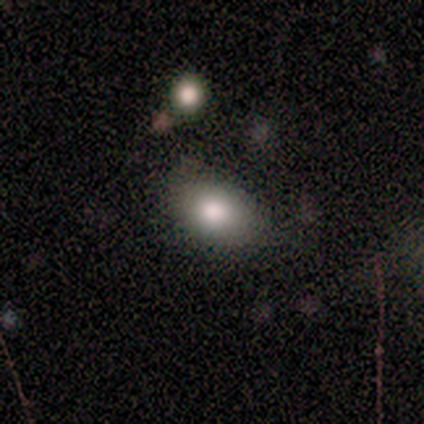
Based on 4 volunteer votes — Smooth or featured? smooth (50%, tied with featured or disk)
How rounded? round (100%)
Merging? none (100%)